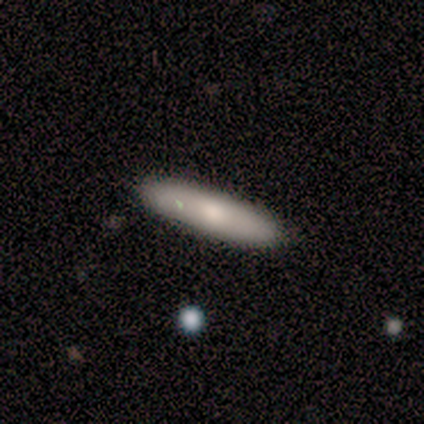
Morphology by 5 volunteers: smooth 80%, featured or disk 20%, star or artifact 0%. Down the decision tree: how rounded — cigar-shaped (100%); merging — none (100%).